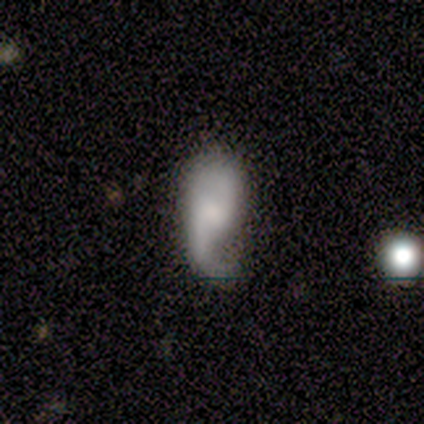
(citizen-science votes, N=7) smooth_or_featured: featured or disk (p=0.57) [alt: smooth p=0.43]
disk_edge_on: no (p=1.00)
bar: weak (p=0.50) [tied with: no p=0.50]
has_spiral_arms: yes (p=1.00)
spiral_winding: loose (p=0.75) [alt: medium p=0.25]
spiral_arm_count: 2 (p=0.75) [alt: 1 p=0.25]
bulge_size: none (p=0.75) [alt: moderate p=0.25]
merging: none (p=0.43) [tied with: minor disturbance p=0.43]